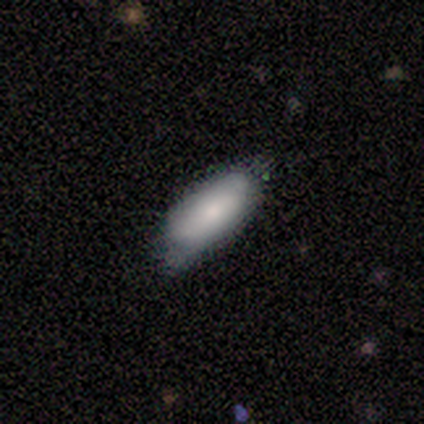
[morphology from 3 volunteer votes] Overall: smooth (67%; featured or disk 33%). How rounded: in between (100%). Merging: minor disturbance (67%; none 33%).